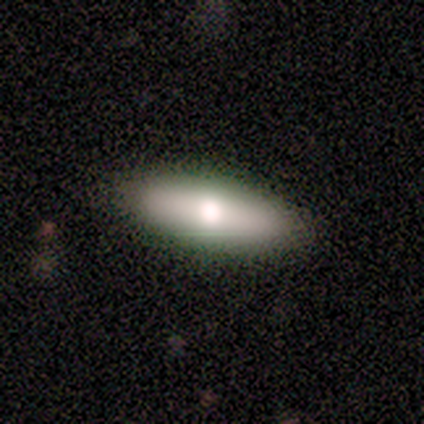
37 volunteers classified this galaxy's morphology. A smooth galaxy with no disk features (76%) that is in between round and cigar-shaped (64%). Merging: none (94%).